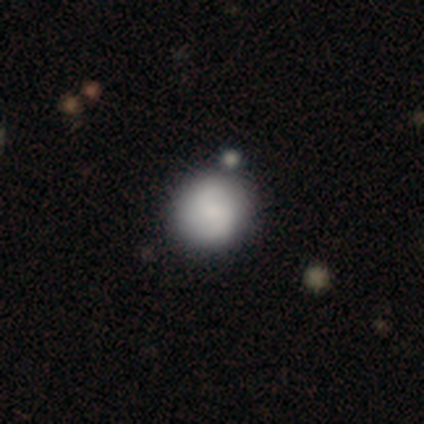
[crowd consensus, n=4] A smooth galaxy with no disk features (75%) that is round (100%).

Vote fractions:
- Smooth or featured? smooth: 75% / star or artifact: 25% / featured or disk: 0%
- How rounded? round: 100% / in between: 0% / cigar-shaped: 0%
- Merging? none: 67% / merger: 33% / minor disturbance: 0% / major disturbance: 0%